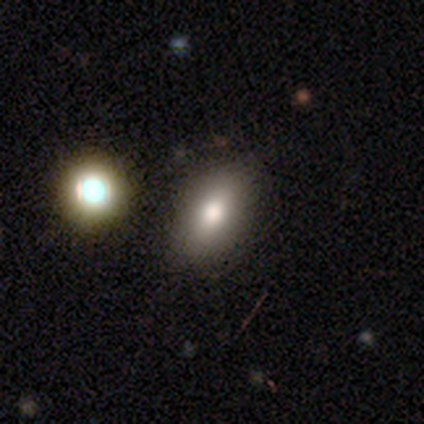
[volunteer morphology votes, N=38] Q: Smooth or featured?
A: smooth (74%); runner-up: featured or disk (13%)
Q: How rounded?
A: in between (93%); runner-up: cigar-shaped (7%)
Q: Merging?
A: none (55%); runner-up: merger (12%)